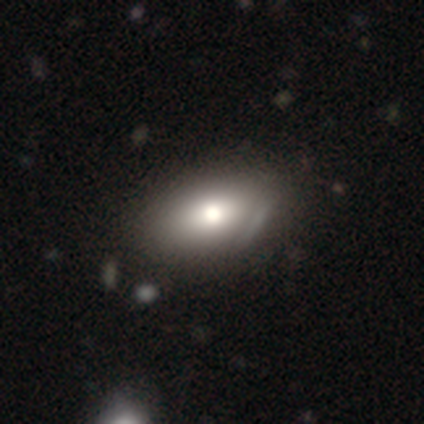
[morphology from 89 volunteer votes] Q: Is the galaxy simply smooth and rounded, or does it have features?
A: smooth — 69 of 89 (78%).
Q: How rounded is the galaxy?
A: in between — 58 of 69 (84%).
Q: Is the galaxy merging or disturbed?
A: none — 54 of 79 (68%).